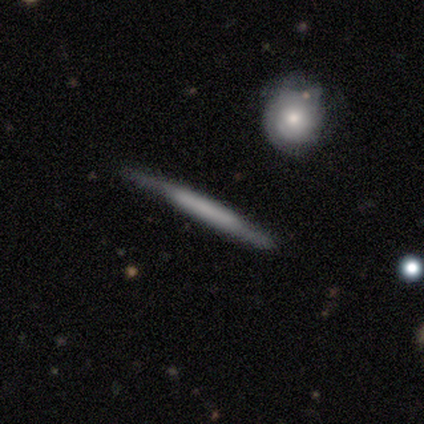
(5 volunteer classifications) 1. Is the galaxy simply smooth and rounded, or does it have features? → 60% featured or disk, 40% smooth, 0% star or artifact.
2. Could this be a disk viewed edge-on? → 100% yes, 0% no.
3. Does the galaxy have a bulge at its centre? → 100% none, 0% boxy, 0% rounded.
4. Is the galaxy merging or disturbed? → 100% none, 0% minor disturbance, 0% major disturbance, 0% merger.